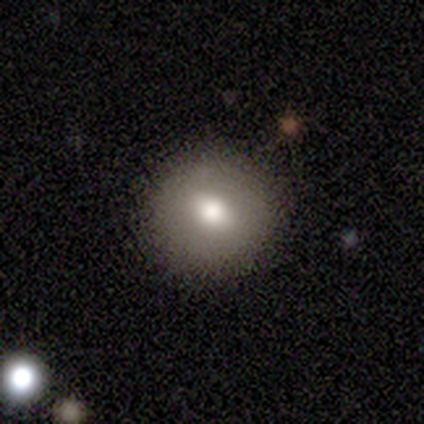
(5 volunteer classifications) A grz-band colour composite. It shows a smooth galaxy with no disk features (60%) that is round (100%). Merging: none (100%).